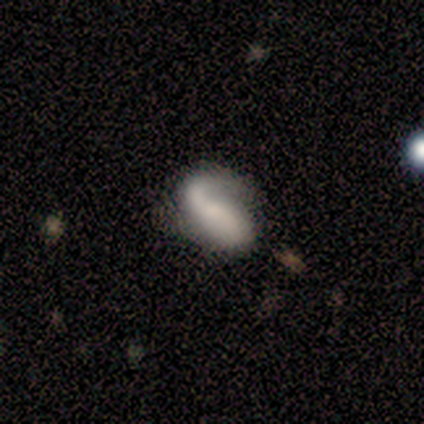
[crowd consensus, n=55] Smooth or featured? 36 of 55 (65%) said featured or disk. Edge-on disk? 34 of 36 (94%) said no. Bar? 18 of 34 (53%) said no. Spiral arms? 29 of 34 (85%) said yes. Spiral winding? 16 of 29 (55%) said loose. Spiral arm count? 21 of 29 (72%) said 2. Bulge size? 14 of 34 (41%) said none. Merging? 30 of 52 (58%) said none.